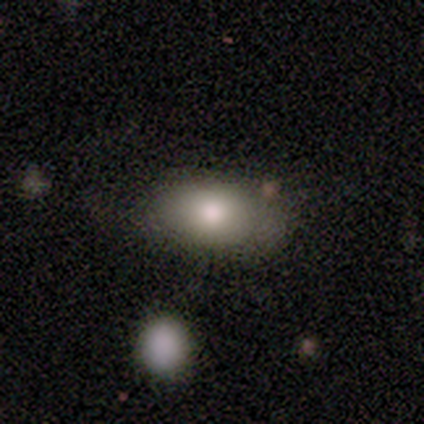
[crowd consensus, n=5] Morphology: type=smooth (80%); roundness=in between (100%); merging=none (80%).